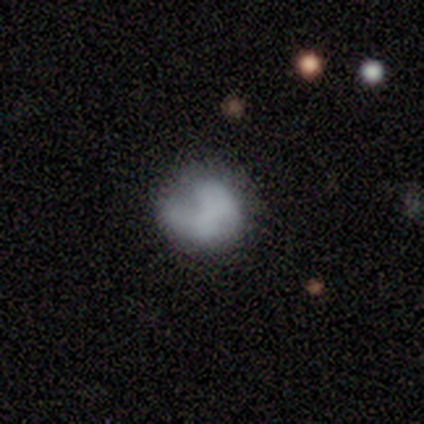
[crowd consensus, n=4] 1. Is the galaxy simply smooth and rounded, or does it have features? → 100% smooth, 0% featured or disk, 0% star or artifact.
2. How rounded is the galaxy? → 75% round, 25% in between, 0% cigar-shaped.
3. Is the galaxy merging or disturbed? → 75% minor disturbance, 25% major disturbance, 0% none, 0% merger.